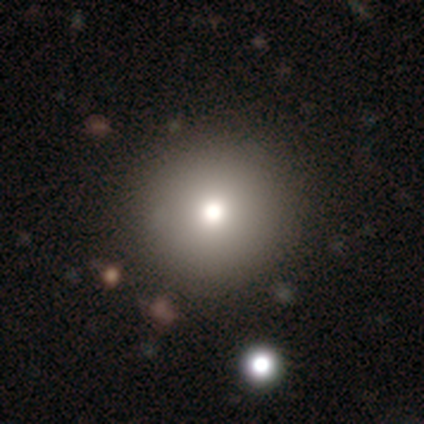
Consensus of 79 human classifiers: smooth 80%, star or artifact 13%, featured or disk 8%. Down the decision tree: how rounded — round (98%); merging — none (48%).